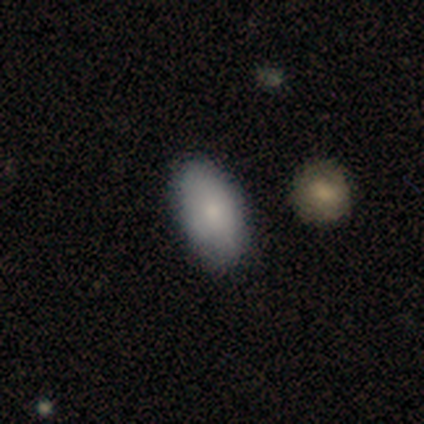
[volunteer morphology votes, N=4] Smooth or featured? smooth (75%)
How rounded? in between (100%)
Merging? none (50%)